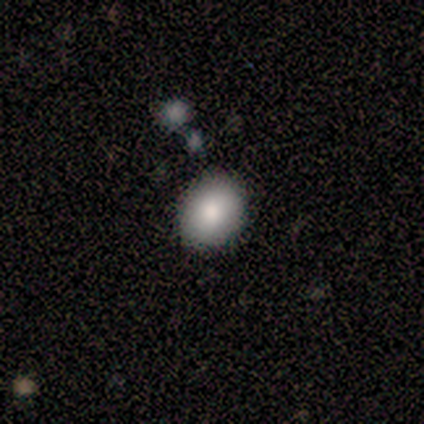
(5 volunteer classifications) Volunteers were most divided on "how rounded": round: 60%, in between: 40%, cigar-shaped: 0%. More confident: smooth or featured — smooth (100%); merging — none (60%).